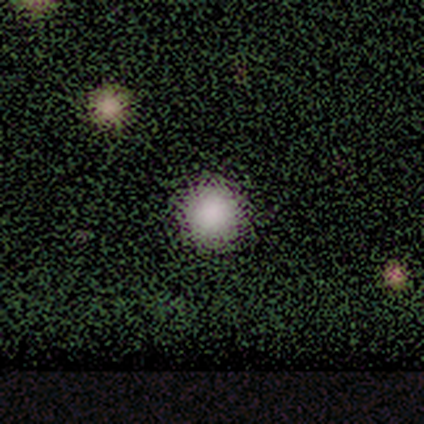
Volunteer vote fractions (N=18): Morphology: type=smooth (61%); roundness=round (100%); merging=none (92%).